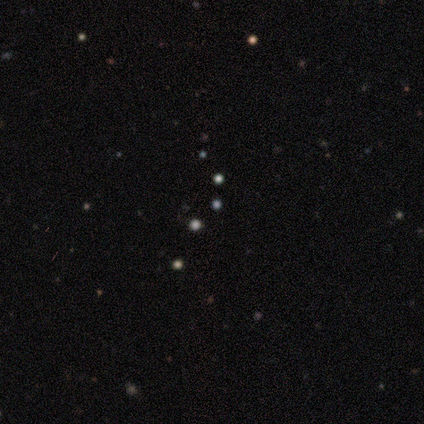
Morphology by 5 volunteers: star or artifact 80%, smooth 20%, featured or disk 0%.